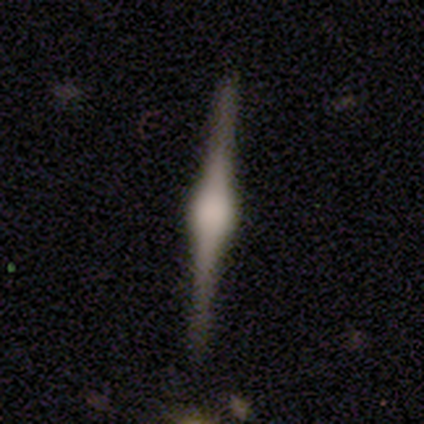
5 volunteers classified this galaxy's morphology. Smooth or featured?
  - featured or disk: 100% *
  - smooth: 0%
  - star or artifact: 0%
Edge-on disk?
  - yes: 100% *
  - no: 0%
Edge-on bulge?
  - rounded: 100% *
  - boxy: 0%
  - none: 0%
Merging?
  - none: 100% *
  - minor disturbance: 0%
  - major disturbance: 0%
  - merger: 0%